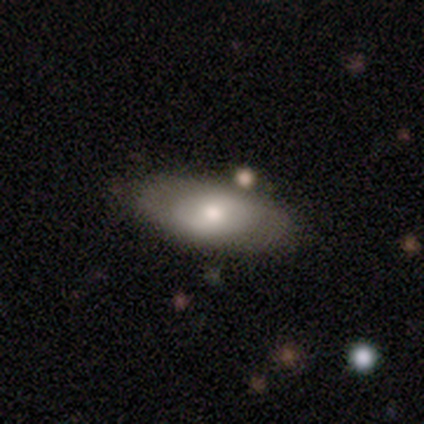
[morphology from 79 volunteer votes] A smooth galaxy with no disk features (61%) that is in between round and cigar-shaped (90%). Merging: none (41%).